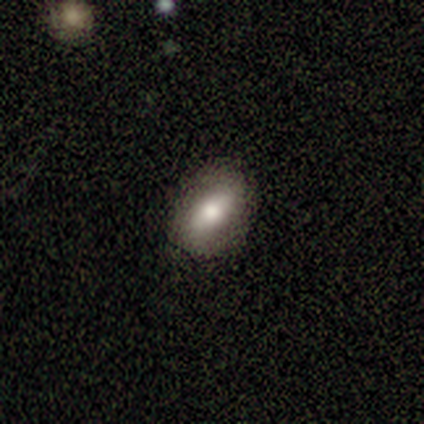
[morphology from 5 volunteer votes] Volunteers were most divided on "smooth or featured" (2-way tie): featured or disk: 40%, star or artifact: 40%, smooth: 20%. More confident: edge-on disk — no (100%); bar — weak (100%); spiral arms — no (100%); bulge size — moderate (100%); merging — none (100%).